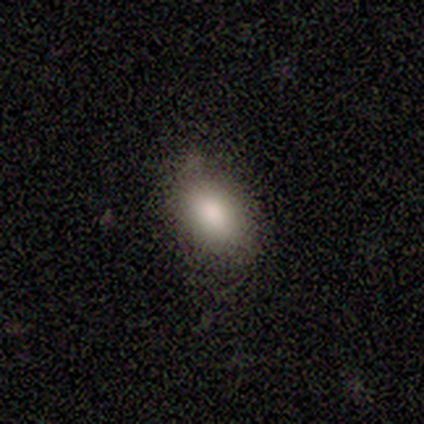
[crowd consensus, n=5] smooth 80%, star or artifact 20%, featured or disk 0%. Down the decision tree: how rounded — in between (100%); merging — none (50%, tied with minor disturbance).